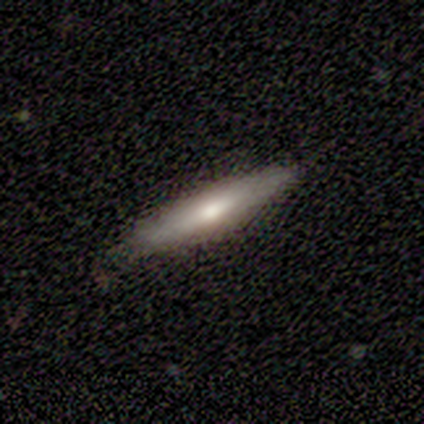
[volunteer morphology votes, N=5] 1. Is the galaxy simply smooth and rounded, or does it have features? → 80% smooth, 20% featured or disk, 0% star or artifact.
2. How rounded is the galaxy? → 100% cigar-shaped, 0% round, 0% in between.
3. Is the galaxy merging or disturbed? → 80% none, 20% major disturbance, 0% minor disturbance, 0% merger.